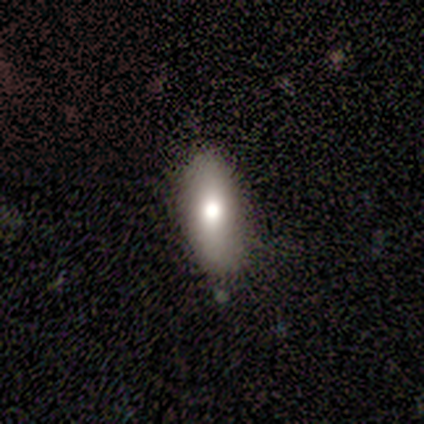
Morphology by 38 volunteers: Smooth or featured: smooth — 76% (featured or disk — 21%)
How rounded: in between — 86% (cigar-shaped — 14%)
Merging: none — 86% (minor disturbance — 11%)